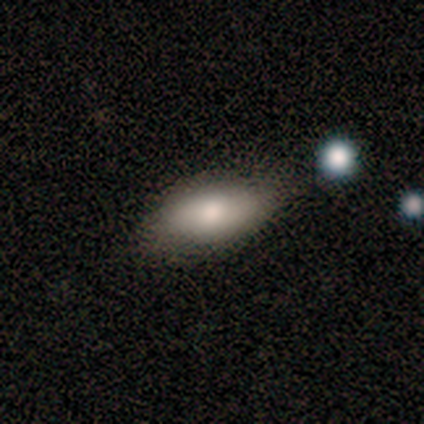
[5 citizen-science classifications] Morphology: type=smooth (40%, tied with featured or disk); roundness=in between (100%); merging=none (75%).